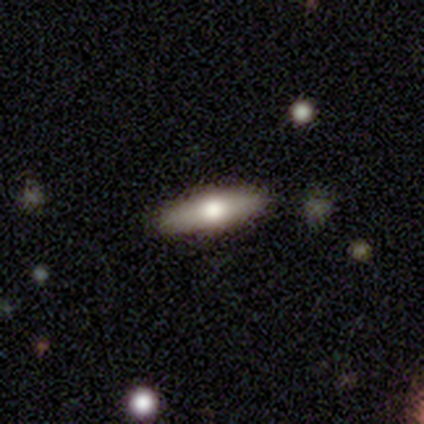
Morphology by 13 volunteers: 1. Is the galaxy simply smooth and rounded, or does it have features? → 54% smooth, 38% featured or disk, 8% star or artifact.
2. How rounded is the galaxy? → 86% cigar-shaped, 14% in between, 0% round.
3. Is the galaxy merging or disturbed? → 100% none, 0% minor disturbance, 0% major disturbance, 0% merger.